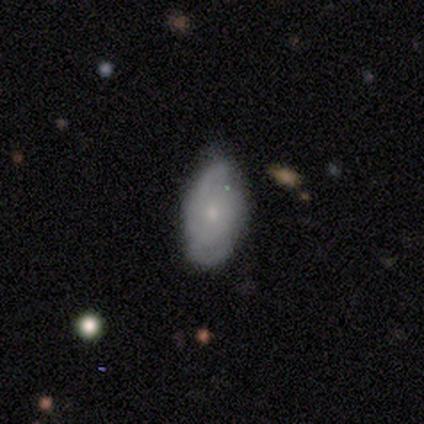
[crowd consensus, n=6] Morphology: type=smooth (50%, tied with featured or disk); roundness=in between (100%); merging=none (83%).